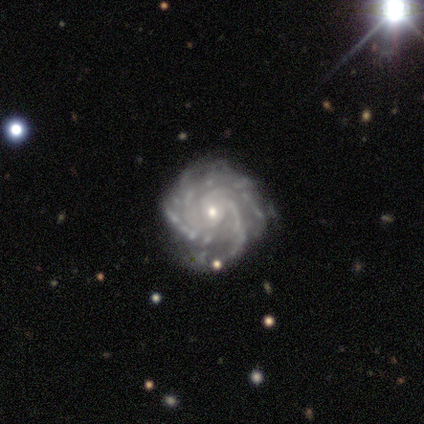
A featured or disk galaxy (95%) with no bar (79%), 3 (26%, tied with 4) tight (68%) spiral arms (100%) and a small central bulge (63%). Merging: none (71%).